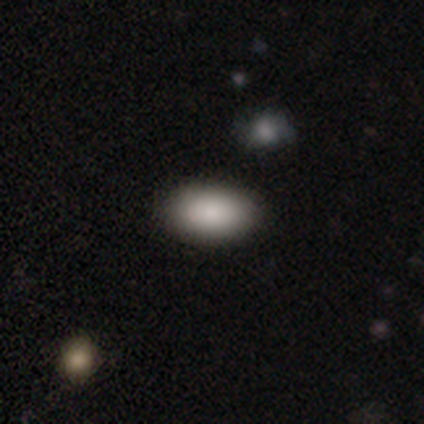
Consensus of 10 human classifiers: Smooth or featured? smooth (80%)
How rounded? in between (88%)
Merging? none (100%)